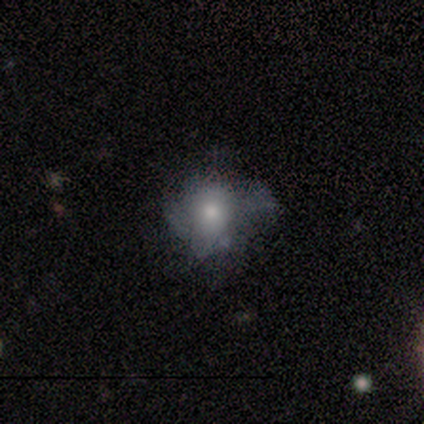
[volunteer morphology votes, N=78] A smooth galaxy with no disk features (50%) that is round (62%). Merging: none (31%).